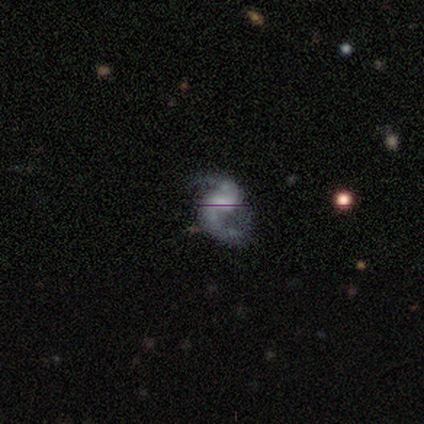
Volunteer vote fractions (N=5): This is clearly a featured or disk galaxy (100%). It is clearly not viewed edge-on (100%). Bar: likely strong (60%). Spiral arm pattern: clearly yes (100%). Spiral arm count: clearly 2 (100%). Spiral winding: likely loose (60%). Central bulge: likely small (60%). Merging: clearly none (80%).